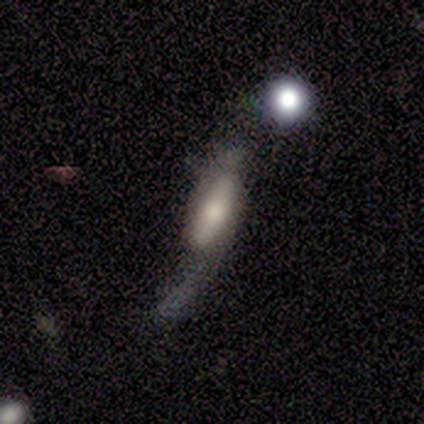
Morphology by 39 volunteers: A featured or disk galaxy (54%) with no bar (58%), no spiral arms (67%) and a moderate central bulge (42%). Merging: major disturbance (46%).